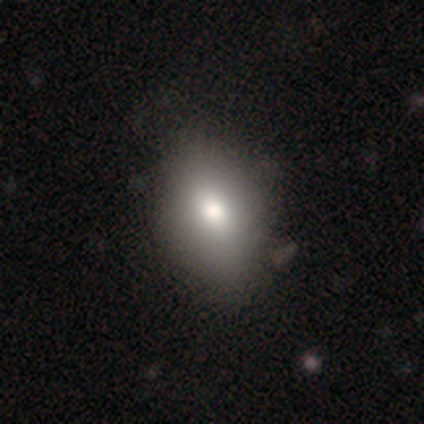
A smooth galaxy with no disk features (60%) that is in between round and cigar-shaped (100%).

Vote fractions:
- Smooth or featured? smooth: 60% / featured or disk: 40% / star or artifact: 0%
- How rounded? in between: 100% / round: 0% / cigar-shaped: 0%
- Merging? minor disturbance: 80% / merger: 20% / none: 0% / major disturbance: 0%